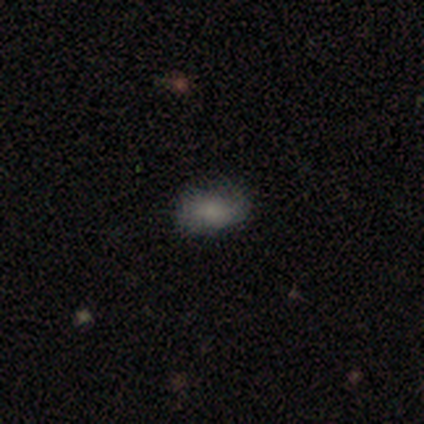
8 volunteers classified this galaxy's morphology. Smooth or featured?
  - smooth: 50% *
  - featured or disk: 25%
  - star or artifact: 25%
How rounded?
  - in between: 100% *
  - round: 0%
  - cigar-shaped: 0%
Merging?
  - none: 67% *
  - minor disturbance: 17%
  - major disturbance: 17%
  - merger: 0%